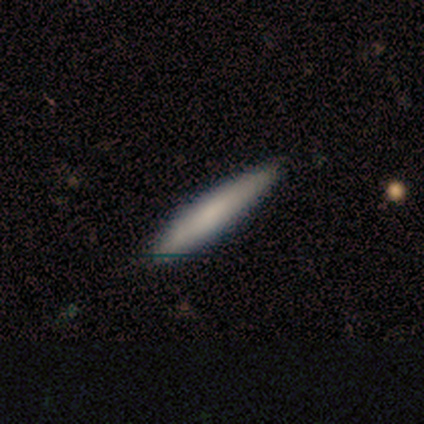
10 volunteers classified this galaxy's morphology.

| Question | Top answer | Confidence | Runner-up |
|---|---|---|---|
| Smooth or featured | smooth | 60% | featured or disk (30%) |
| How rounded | cigar-shaped | 83% | in between (17%) |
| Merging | none | 78% | minor disturbance (22%) |